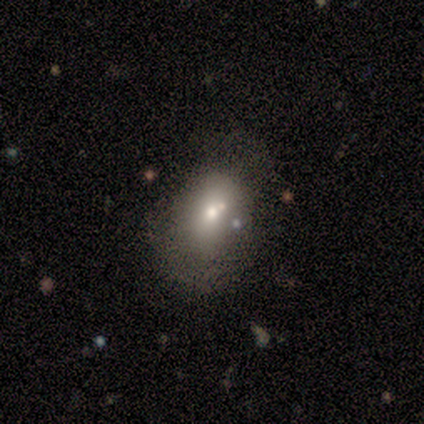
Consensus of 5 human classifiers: Overall: featured or disk (80%). Edge-on disk: no (100%). Bar: no (100%). Spiral arms: no (100%). Bulge size: small (75%). Merging: none (60%; minor disturbance 20%).